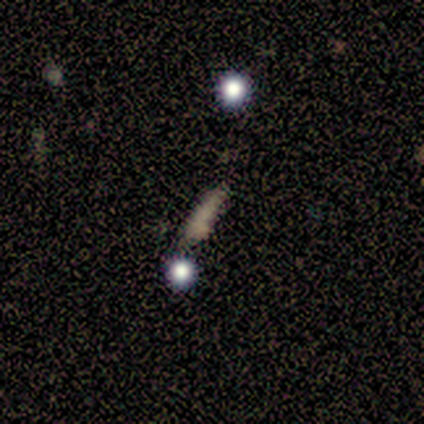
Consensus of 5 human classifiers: This appears to be a featured or disk galaxy (40%, tied with star or artifact) viewed edge-on (100%) with no central bulge (100%). Merging: none (67%).